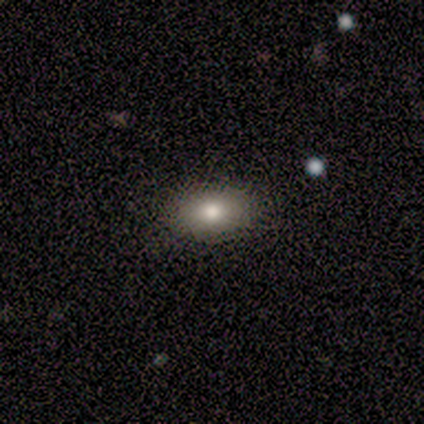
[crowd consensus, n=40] Volunteers were most divided on "smooth or featured": smooth: 75%, featured or disk: 12%, star or artifact: 12%. More confident: merging — none (89%); how rounded — in between (87%).